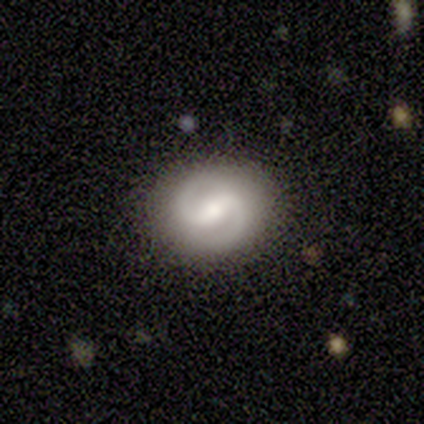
A featured or disk galaxy (100%) with a weak bar (100%), 2 (100%) tight (50%, tied with medium) spiral arms (80%) and a moderate central bulge (60%). Merging: none (80%).